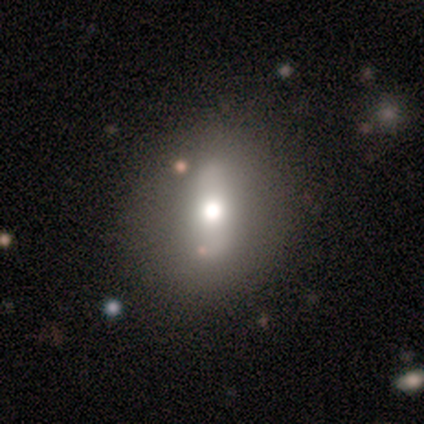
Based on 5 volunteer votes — Q: Smooth or featured?
A: smooth (100%)
Q: How rounded?
A: round (60%); runner-up: in between (40%)
Q: Merging?
A: none (100%)